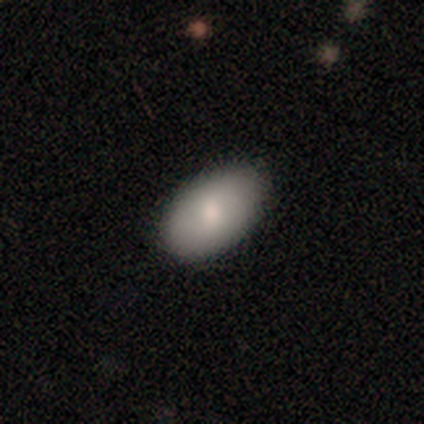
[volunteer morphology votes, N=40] Smooth or featured? 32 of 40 (80%) said smooth. How rounded? 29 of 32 (91%) said in between. Merging? 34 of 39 (87%) said none.